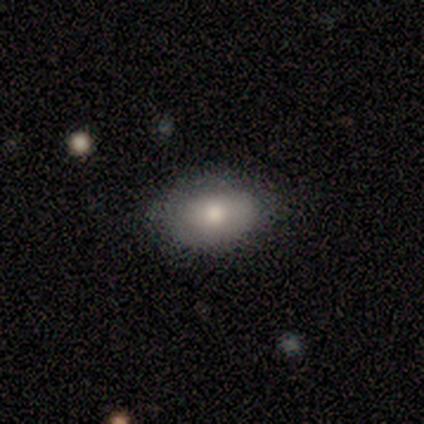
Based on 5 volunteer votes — smooth-or-featured: smooth: 80% | featured or disk: 20% | star or artifact: 0%
  how-rounded: in between: 100% | round: 0% | cigar-shaped: 0%
  merging: none: 80% | merger: 20% | minor disturbance: 0% | major disturbance: 0%